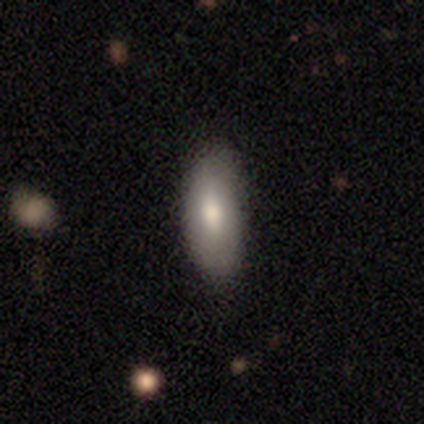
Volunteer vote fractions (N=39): Volunteers were most divided on "how rounded": in between: 69%, cigar-shaped: 21%, round: 10%. More confident: merging — none (82%); smooth or featured — smooth (74%).